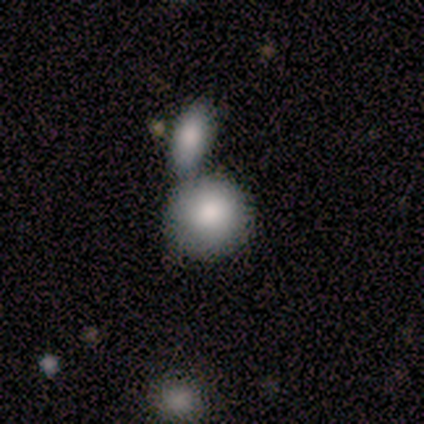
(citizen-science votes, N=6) smooth_or_featured: smooth (p=1.00)
how_rounded: round (p=1.00)
merging: merger (p=0.50) [alt: none p=0.33]